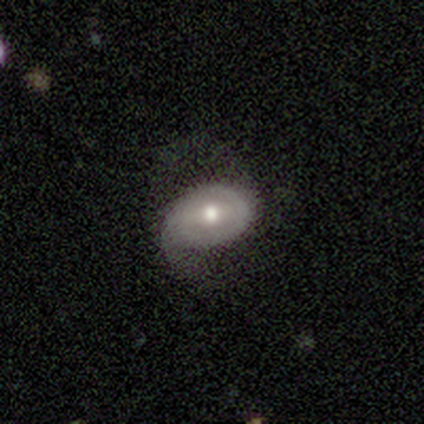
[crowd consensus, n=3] Morphology: type=smooth (67%); roundness=round (50%, tied with in between); merging=none (67%).